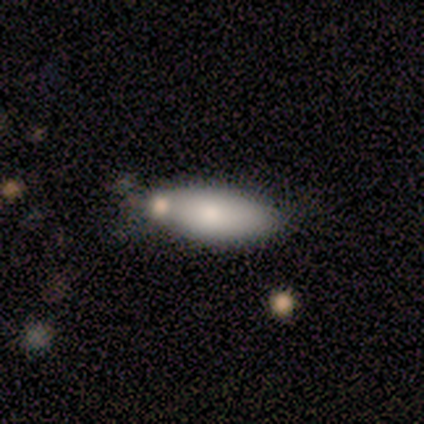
Smooth or featured?
  - smooth: 100% *
  - featured or disk: 0%
  - star or artifact: 0%
How rounded?
  - in between: 78% *
  - cigar-shaped: 22%
  - round: 0%
Merging?
  - none: 56% *
  - merger: 22%
  - minor disturbance: 11%
  - major disturbance: 11%